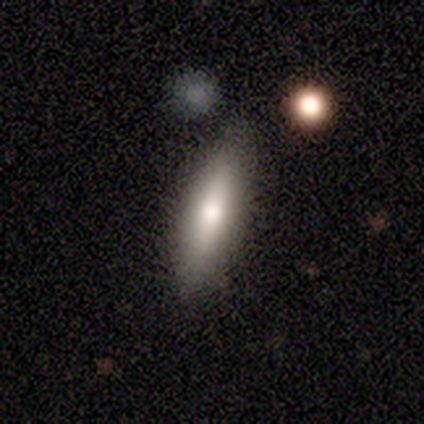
Smooth or featured? smooth (50%, tied with featured or disk)
How rounded? cigar-shaped (100%)
Merging? none (83%)